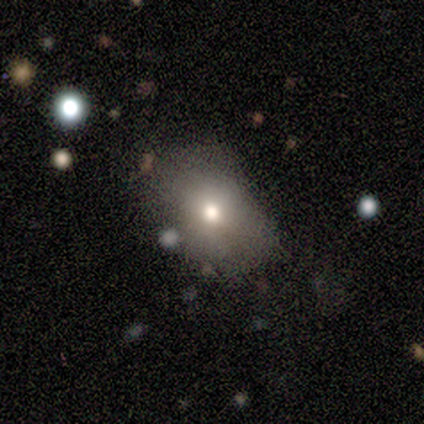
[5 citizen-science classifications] Q: Smooth or featured?
A: smooth (80%); runner-up: star or artifact (20%)
Q: How rounded?
A: round (50%); tied with: in between (50%)
Q: Merging?
A: none (50%); tied with: minor disturbance (50%)